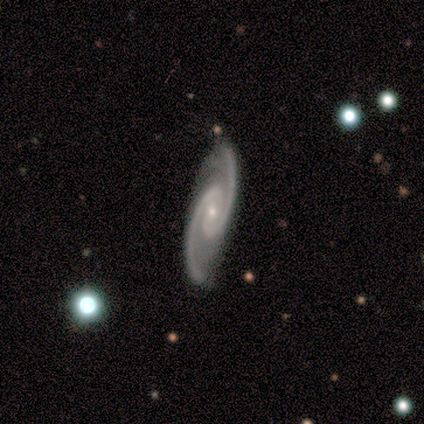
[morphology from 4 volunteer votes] Smooth or featured? 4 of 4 (100%) said featured or disk. Edge-on disk? 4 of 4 (100%) said no. Bar? 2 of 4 (50%) said strong. Spiral arms? 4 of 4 (100%) said yes. Spiral winding? 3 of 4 (75%) said medium. Spiral arm count? 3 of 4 (75%) said 2. Bulge size? 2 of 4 (50%, tied with small) said moderate. Merging? 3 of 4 (75%) said none.